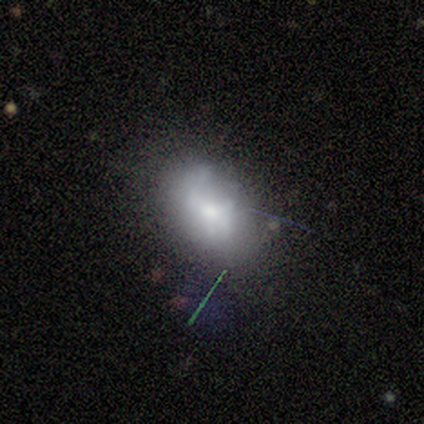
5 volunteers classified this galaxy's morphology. Volunteers were most divided on "merging": none: 60%, minor disturbance: 40%, major disturbance: 0%, merger: 0%. More confident: smooth or featured — smooth (80%); how rounded — in between (75%).